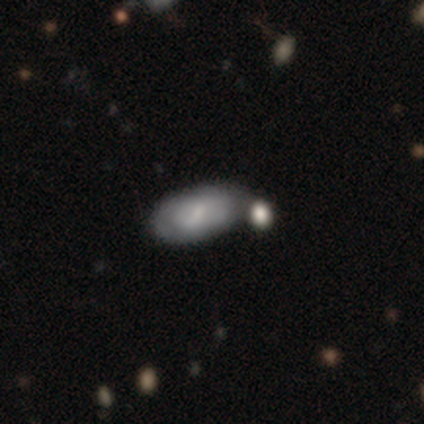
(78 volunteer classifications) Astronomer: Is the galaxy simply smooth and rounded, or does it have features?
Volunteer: smooth — 53% (runner-up: featured or disk, 42%).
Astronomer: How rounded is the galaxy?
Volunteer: in between — 98%.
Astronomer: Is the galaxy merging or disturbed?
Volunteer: merger — 26% (runner-up: none, 23%).